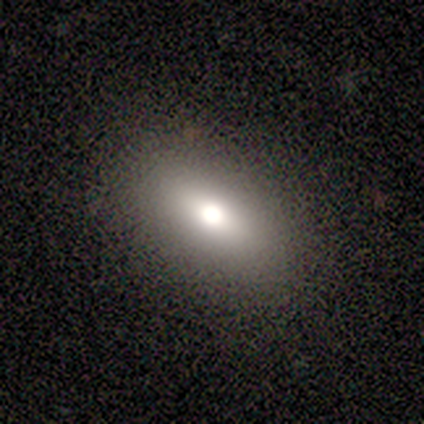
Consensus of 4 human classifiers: Consensus on every question: smooth or featured — smooth (100%); how rounded — in between (100%); merging — none (100%).